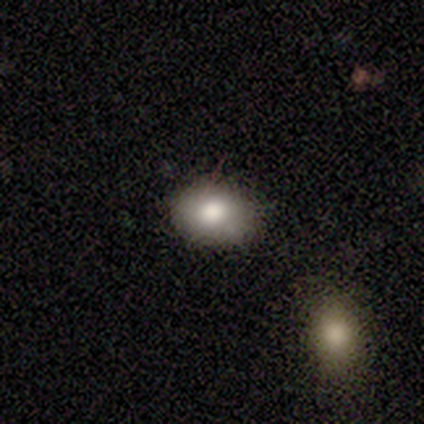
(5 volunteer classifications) Smooth or featured: smooth — 100%
How rounded: in between — 60% (round — 40%)
Merging: none — 80% (minor disturbance — 20%)